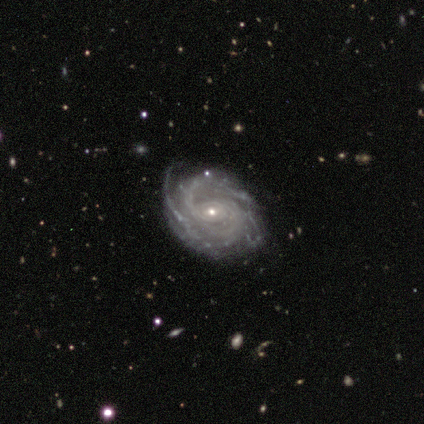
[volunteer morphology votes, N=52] This is clearly a featured or disk galaxy (96%). It is clearly not viewed edge-on (96%). Bar: likely no (62%). Spiral arm pattern: clearly yes (100%). Spiral arm count: marginally 2 (29%). Spiral winding: likely tight (62%). Central bulge: likely small (77%). Merging: possibly none (57%).